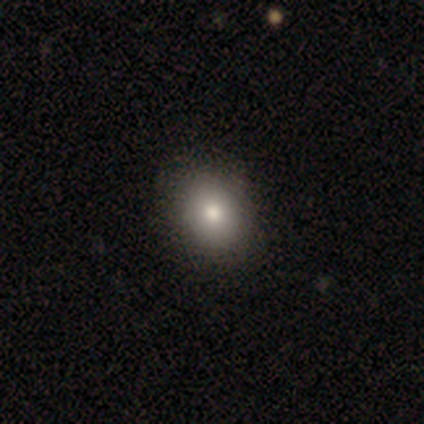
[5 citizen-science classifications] Morphology: type=smooth (80%); roundness=round (50%, tied with in between); merging=minor disturbance (75%).